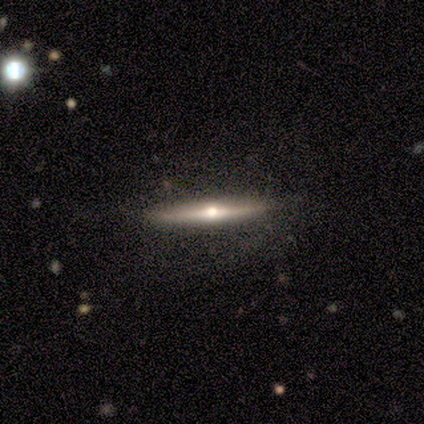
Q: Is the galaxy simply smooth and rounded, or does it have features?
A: featured or disk — 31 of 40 (78%).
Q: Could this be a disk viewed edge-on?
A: yes — 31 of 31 (100%).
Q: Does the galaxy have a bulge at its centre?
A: rounded — 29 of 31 (94%).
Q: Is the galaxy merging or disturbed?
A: none — 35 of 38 (92%).